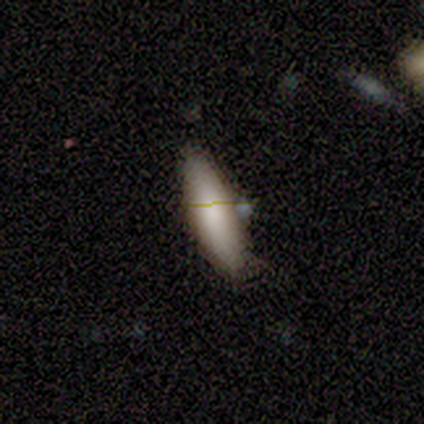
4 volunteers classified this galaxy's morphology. smooth 75%, featured or disk 25%, star or artifact 0%. Down the decision tree: how rounded — in between (67%); merging — none (100%).